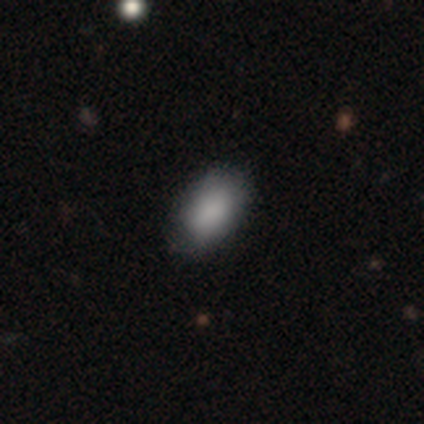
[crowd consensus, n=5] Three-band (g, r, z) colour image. It shows a smooth galaxy with no disk features (100%) that is in between round and cigar-shaped (100%). Merging: none (100%).